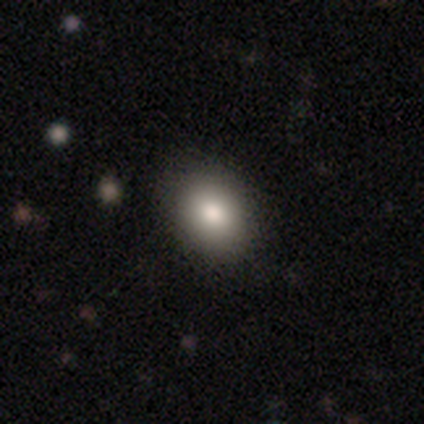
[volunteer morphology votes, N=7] Smooth or featured?
  - smooth: 100% *
  - featured or disk: 0%
  - star or artifact: 0%
How rounded?
  - in between: 86% *
  - round: 14%
  - cigar-shaped: 0%
Merging?
  - none: 86% *
  - minor disturbance: 14%
  - major disturbance: 0%
  - merger: 0%